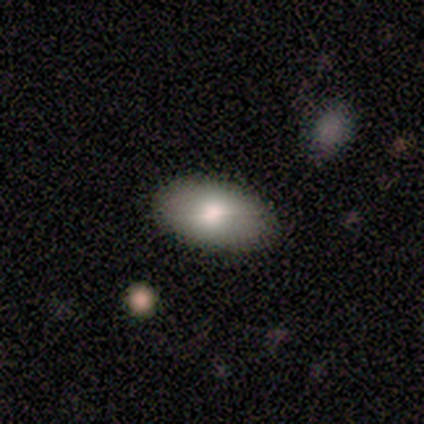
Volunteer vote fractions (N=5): Morphology: type=smooth (100%); roundness=in between (100%); merging=none (80%).